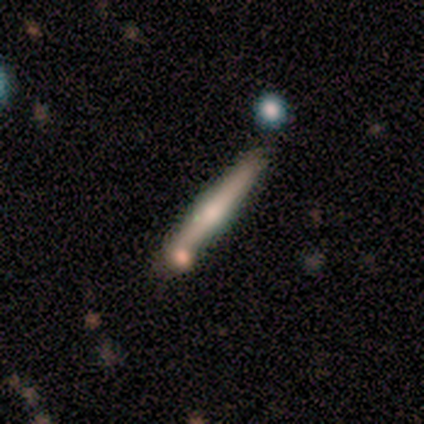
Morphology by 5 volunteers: A featured or disk galaxy (80%) viewed edge-on (100%) with a rounded central bulge (75%).

Vote fractions:
- Smooth or featured? featured or disk: 80% / smooth: 20% / star or artifact: 0%
- Edge-on disk? yes: 100% / no: 0%
- Edge-on bulge? rounded: 75% / boxy: 25% / none: 0%
- Merging? merger: 60% / none: 20% / minor disturbance: 20% / major disturbance: 0%